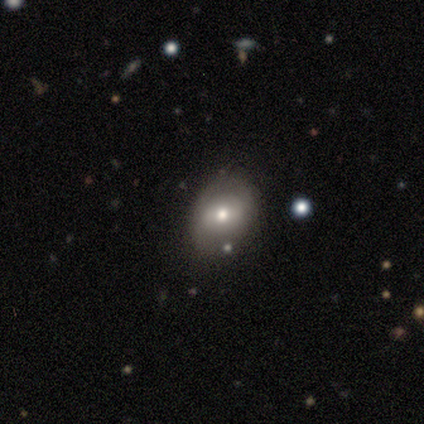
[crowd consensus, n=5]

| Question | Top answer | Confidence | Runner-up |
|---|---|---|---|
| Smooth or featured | featured or disk | 60% | smooth (40%) |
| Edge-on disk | no | 100% | — |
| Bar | weak | 67% | no (33%) |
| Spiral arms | no | 100% | — |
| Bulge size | moderate | 100% | — |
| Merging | none | 100% | — |